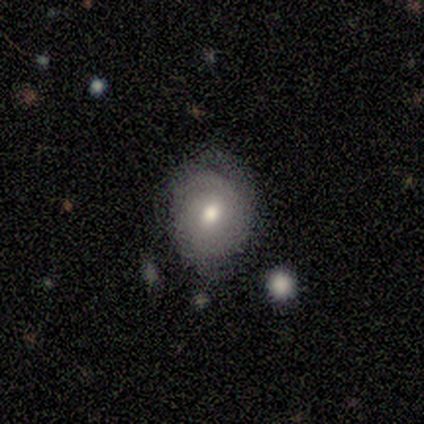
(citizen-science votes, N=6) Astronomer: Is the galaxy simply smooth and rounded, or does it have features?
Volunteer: smooth — 50% (runner-up: featured or disk, 33%).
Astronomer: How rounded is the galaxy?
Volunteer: in between — 100%.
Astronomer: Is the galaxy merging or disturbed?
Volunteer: none — 60% (runner-up: minor disturbance, 40%).